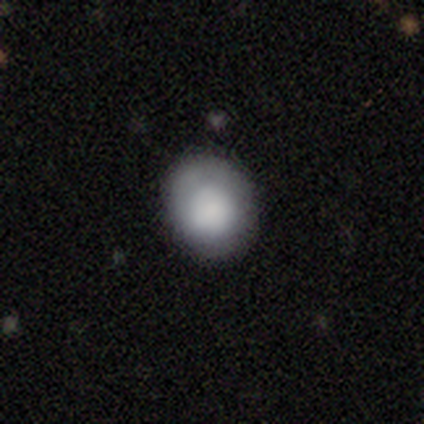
Volunteers were most divided on "how rounded" (2-way tie): round: 50%, in between: 50%, cigar-shaped: 0%. More confident: smooth or featured — smooth (80%); merging — minor disturbance (60%).